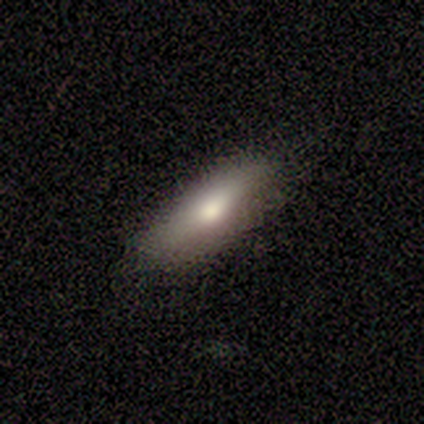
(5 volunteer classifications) A smooth galaxy with no disk features (40%, tied with star or artifact) that is round (50%, tied with in between).

Vote fractions:
- Smooth or featured? smooth: 40% (tied) / star or artifact: 40% (tied) / featured or disk: 20%
- How rounded? round: 50% (tied) / in between: 50% (tied) / cigar-shaped: 0%
- Merging? none: 100% / minor disturbance: 0% / major disturbance: 0% / merger: 0%